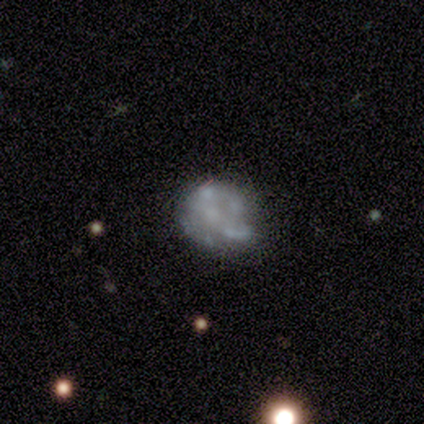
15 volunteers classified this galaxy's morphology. Volunteers were most divided on "bulge size": none: 50%, moderate: 30%, small: 20%, dominant: 0%, large: 0%. More confident: edge-on disk — no (100%); bar — no (90%); spiral arms — no (70%); smooth or featured — featured or disk (67%); merging — none (67%).